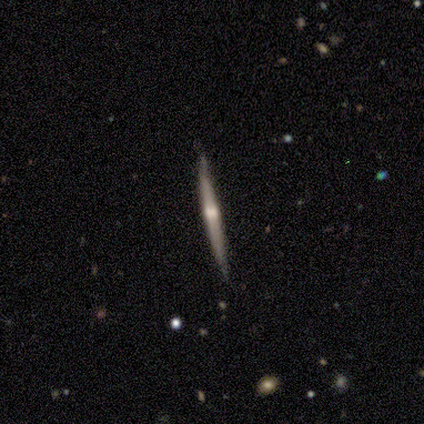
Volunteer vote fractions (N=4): Overall: featured or disk (75%). Edge-on disk: yes (100%). Edge-on bulge: rounded (67%; none 33%). Merging: none (75%).